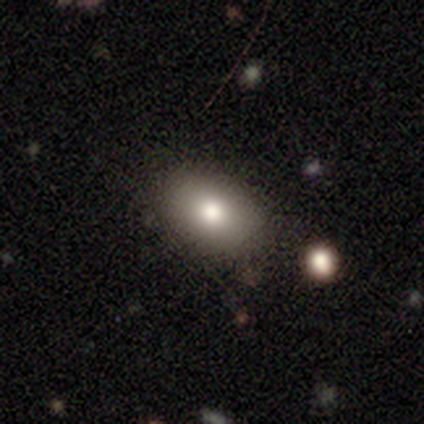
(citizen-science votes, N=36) smooth_or_featured: smooth (p=0.78) [alt: star or artifact p=0.19]
how_rounded: in between (p=0.82) [alt: round p=0.18]
merging: none (p=0.79) [alt: minor disturbance p=0.10]